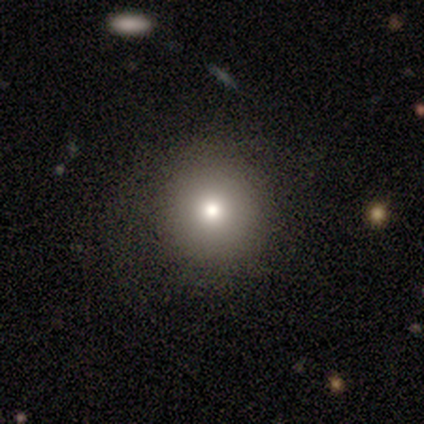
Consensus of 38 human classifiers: A smooth galaxy with no disk features (71%) that is round (96%).

Vote fractions:
- Smooth or featured? smooth: 71% / star or artifact: 18% / featured or disk: 11%
- How rounded? round: 96% / in between: 4% / cigar-shaped: 0%
- Merging? none: 71% / minor disturbance: 16% / major disturbance: 0% / merger: 0%